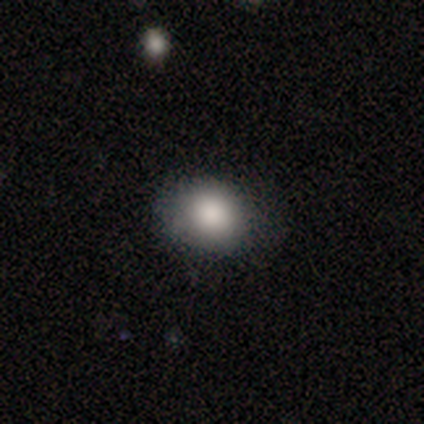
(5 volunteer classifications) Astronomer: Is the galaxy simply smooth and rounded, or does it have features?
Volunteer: smooth — 100%.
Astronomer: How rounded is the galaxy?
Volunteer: round — 60% (runner-up: in between, 40%).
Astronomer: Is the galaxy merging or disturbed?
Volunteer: none — 60%.